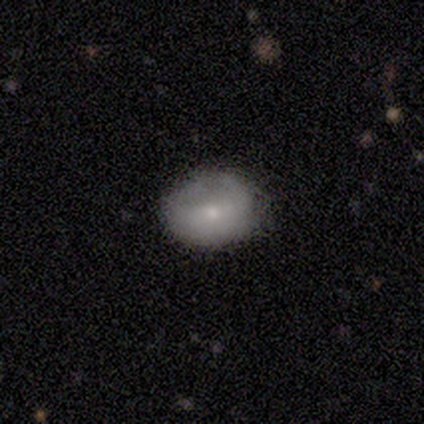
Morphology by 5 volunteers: Smooth or featured?
  - smooth: 60% *
  - featured or disk: 40%
  - star or artifact: 0%
How rounded?
  - in between: 67% *
  - round: 33%
  - cigar-shaped: 0%
Merging?
  - none: 80% *
  - minor disturbance: 20%
  - major disturbance: 0%
  - merger: 0%